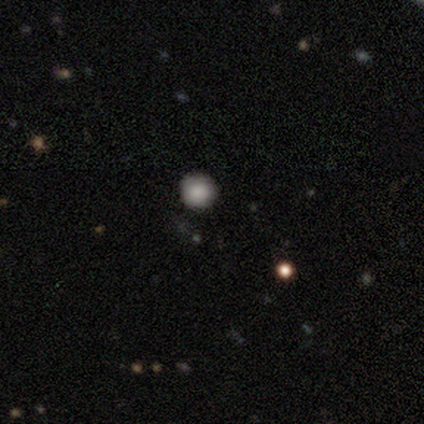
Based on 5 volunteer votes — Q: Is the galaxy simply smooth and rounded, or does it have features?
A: smooth — 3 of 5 (60%).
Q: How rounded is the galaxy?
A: round — 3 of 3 (100%).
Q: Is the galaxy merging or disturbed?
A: none — 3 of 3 (100%).